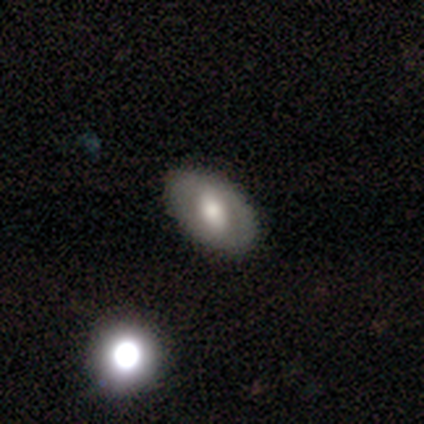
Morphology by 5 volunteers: Smooth or featured: smooth — 80% (featured or disk — 20%)
How rounded: in between — 100%
Merging: none — 80% (major disturbance — 20%)